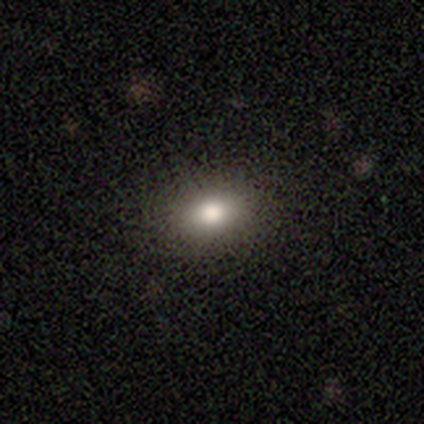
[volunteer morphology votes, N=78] A smooth galaxy with no disk features (87%) that is in between round and cigar-shaped (68%).

Vote fractions:
- Smooth or featured? smooth: 87% / star or artifact: 10% / featured or disk: 3%
- How rounded? in between: 68% / round: 29% / cigar-shaped: 3%
- Merging? none: 57% / minor disturbance: 4% / merger: 1% / major disturbance: 0%